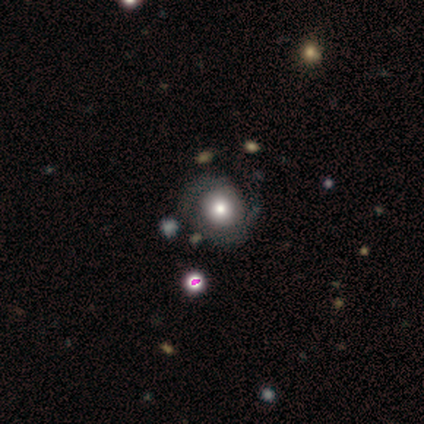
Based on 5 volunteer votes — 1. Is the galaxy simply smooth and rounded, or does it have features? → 80% featured or disk, 20% smooth, 0% star or artifact.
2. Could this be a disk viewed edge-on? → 100% no, 0% yes.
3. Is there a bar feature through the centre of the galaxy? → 100% no, 0% strong, 0% weak.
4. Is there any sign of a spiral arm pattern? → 75% no, 25% yes.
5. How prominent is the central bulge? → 50% moderate, 25% large, 25% small, 0% dominant, 0% none.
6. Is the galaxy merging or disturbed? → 80% none, 20% minor disturbance, 0% major disturbance, 0% merger.